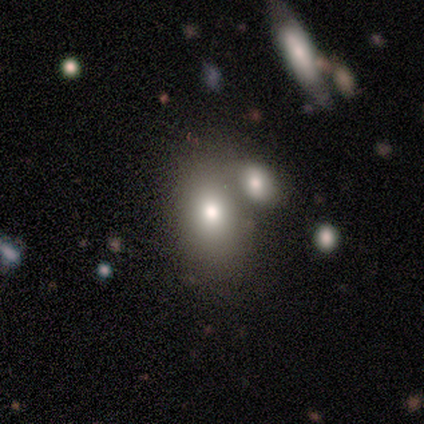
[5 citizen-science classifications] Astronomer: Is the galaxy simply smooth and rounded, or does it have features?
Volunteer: smooth — 60%.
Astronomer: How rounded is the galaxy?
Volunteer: in between — 67%.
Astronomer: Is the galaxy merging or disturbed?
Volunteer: minor disturbance — 50%.